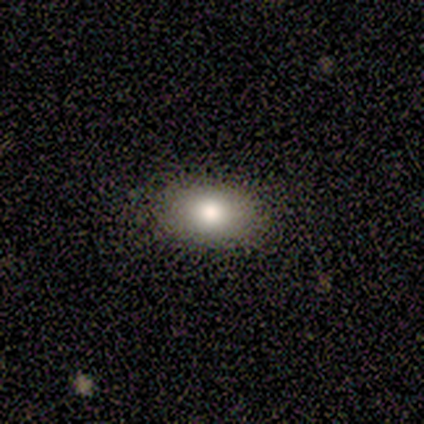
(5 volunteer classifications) Volunteers were most divided on "how rounded": in between: 80%, round: 20%, cigar-shaped: 0%. More confident: smooth or featured — smooth (100%); merging — none (80%).